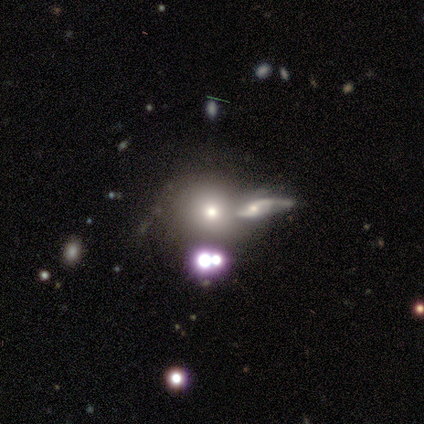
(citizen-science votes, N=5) smooth_or_featured: star or artifact (p=0.60) [alt: smooth p=0.20]